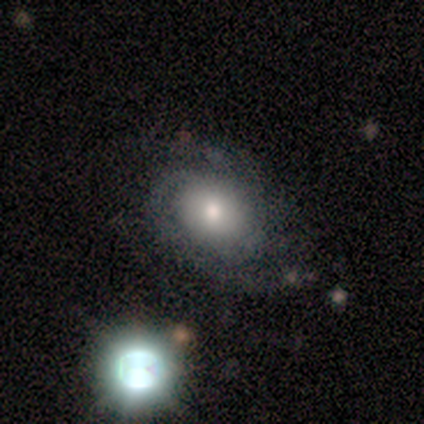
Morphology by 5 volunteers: featured or disk 80%, smooth 20%, star or artifact 0%. Down the decision tree: edge-on disk — no (100%); bar — no (100%); spiral arms — yes (100%); spiral arm count — 2 (75%); spiral winding — tight (50%); bulge size — moderate (100%); merging — none (100%).